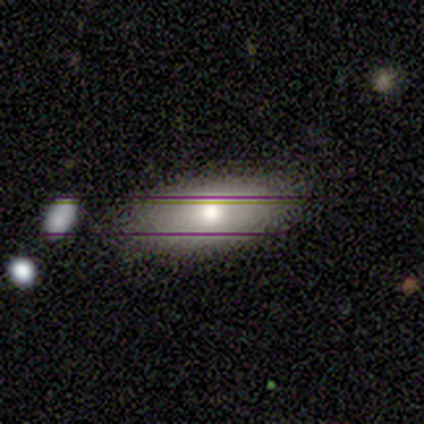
Volunteers were most divided on "merging": none: 80%, merger: 20%, minor disturbance: 0%, major disturbance: 0%. More confident: smooth or featured — smooth (100%); how rounded — in between (100%).